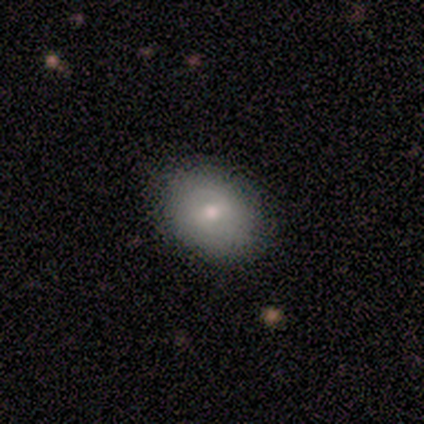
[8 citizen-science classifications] Morphology: type=smooth (88%); roundness=in between (71%); merging=none (100%).